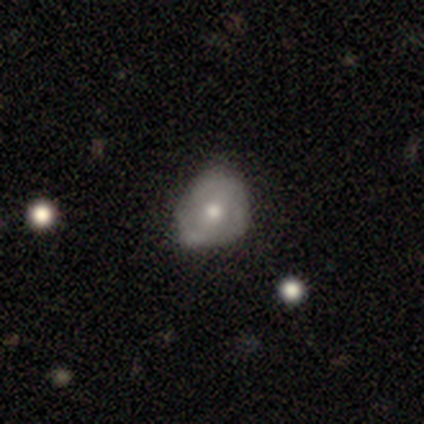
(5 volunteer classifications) Smooth or featured? 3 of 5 (60%) said featured or disk. Edge-on disk? 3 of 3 (100%) said no. Bar? 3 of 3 (100%) said no. Spiral arms? 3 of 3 (100%) said no. Bulge size? 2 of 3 (67%) said moderate. Merging? 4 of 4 (100%) said minor disturbance.